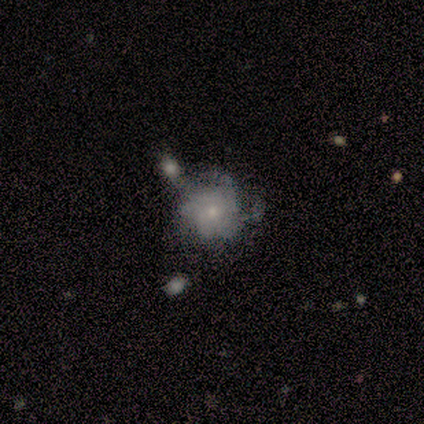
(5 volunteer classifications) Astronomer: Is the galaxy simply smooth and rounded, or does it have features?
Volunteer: featured or disk — 100%.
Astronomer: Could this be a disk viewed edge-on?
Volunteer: no — 100%.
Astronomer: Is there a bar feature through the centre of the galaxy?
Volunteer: no — 80%.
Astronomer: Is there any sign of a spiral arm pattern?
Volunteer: yes — 80%.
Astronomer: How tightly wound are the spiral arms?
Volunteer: loose — 50%.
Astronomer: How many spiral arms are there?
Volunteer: can't tell — 50%.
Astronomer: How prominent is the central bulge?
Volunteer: moderate — 60% (runner-up: small, 40%).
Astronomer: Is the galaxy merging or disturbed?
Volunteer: none — 60%.